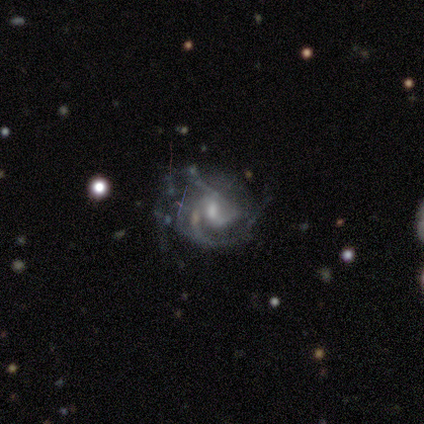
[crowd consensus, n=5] smooth-or-featured: featured or disk: 100% | smooth: 0% | star or artifact: 0%
  disk-edge-on: no: 100% | yes: 0%
    bar: weak: 80% | strong: 20% | no: 0%
    has-spiral-arms: yes: 100% | no: 0%
      spiral-winding: medium: 100% | tight: 0% | loose: 0%
      spiral-arm-count: 2: 40% | 3: 20% | 4: 20% | can't tell: 20% | 1: 0% | more than 4: 0%
    bulge-size: moderate: 100% | dominant: 0% | large: 0% | small: 0% | none: 0%
  merging: none: 40% (tied) | minor disturbance: 40% (tied) | major disturbance: 20% | merger: 0%